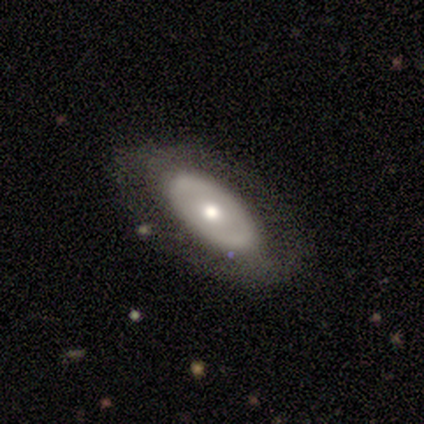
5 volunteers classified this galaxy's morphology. A featured or disk galaxy (80%) with no bar (100%), no spiral arms (100%) and a moderate central bulge (75%).

Vote fractions:
- Smooth or featured? featured or disk: 80% / smooth: 20% / star or artifact: 0%
- Edge-on disk? no: 100% / yes: 0%
- Bar? no: 100% / strong: 0% / weak: 0%
- Spiral arms? no: 100% / yes: 0%
- Bulge size? moderate: 75% / small: 25% / dominant: 0% / large: 0% / none: 0%
- Merging? none: 80% / merger: 20% / minor disturbance: 0% / major disturbance: 0%